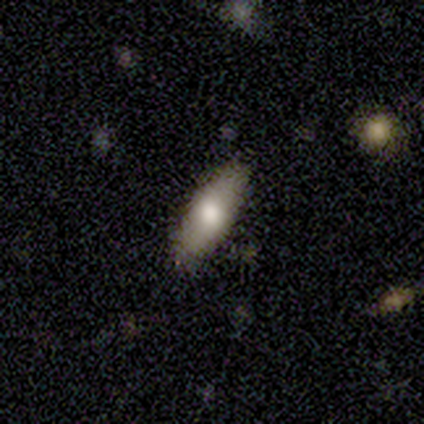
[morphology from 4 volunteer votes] smooth 100%, featured or disk 0%, star or artifact 0%. Down the decision tree: how rounded — in between (50%, tied with cigar-shaped); merging — none (100%).